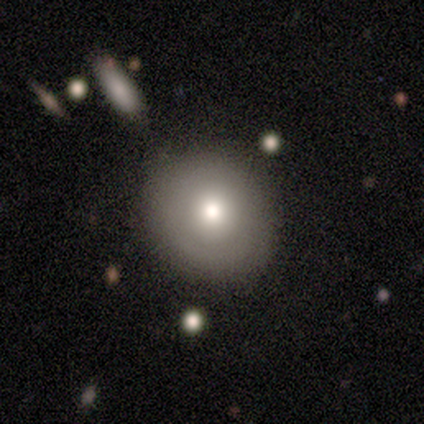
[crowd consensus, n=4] This is likely a smooth galaxy (75%). How rounded: clearly round (100%). Merging: clearly none (100%).